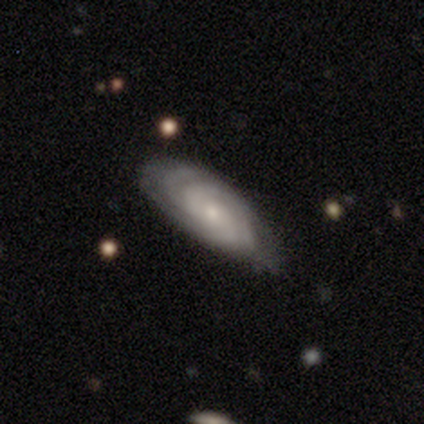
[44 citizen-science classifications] This appears to be a featured or disk galaxy (84%) with no bar (85%), tight (72%) spiral arms (94%) and a moderate central bulge (47%). Merging: none (48%).